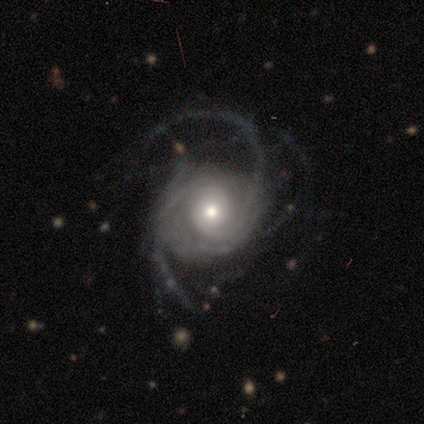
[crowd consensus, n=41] smooth-or-featured: featured or disk: 93% | smooth: 5% | star or artifact: 2%
  disk-edge-on: no: 100% | yes: 0%
    bar: no: 82% | weak: 11% | strong: 8%
    has-spiral-arms: yes: 100% | no: 0%
      spiral-winding: loose: 42% | medium: 37% | tight: 21%
      spiral-arm-count: 3: 37% | can't tell: 26% | 2: 24% | 4: 8% | more than 4: 5% | 1: 0%
    bulge-size: moderate: 63% | small: 24% | large: 13% | dominant: 0% | none: 0%
  merging: major disturbance: 48% | none: 28% | minor disturbance: 25% | merger: 0%